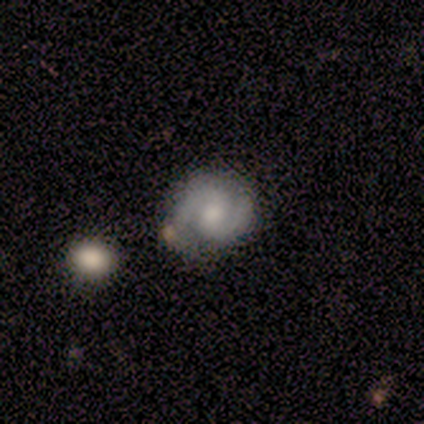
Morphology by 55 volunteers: featured or disk 69%, smooth 22%, star or artifact 9%. Down the decision tree: edge-on disk — no (100%); bar — no (53%); spiral arms — yes (100%); spiral arm count — 2 (95%); spiral winding — tight (45%); bulge size — moderate (50%); merging — none (72%).